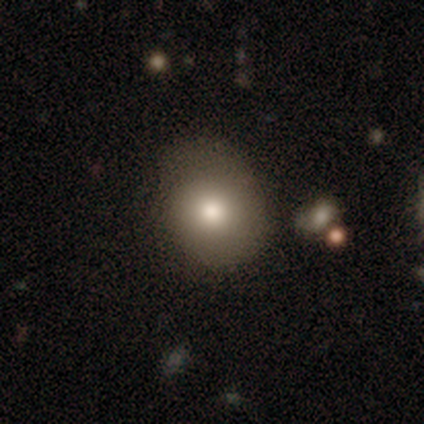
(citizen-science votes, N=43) A smooth galaxy with no disk features (70%) that is round (70%). Merging: none (57%).